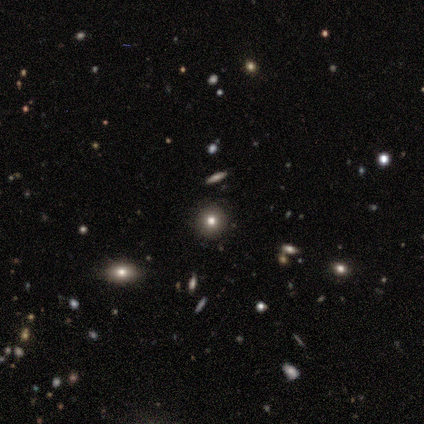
smooth-or-featured: smooth: 83% | featured or disk: 17% | star or artifact: 0%
  how-rounded: round: 100% | in between: 0% | cigar-shaped: 0%
  merging: none: 100% | minor disturbance: 0% | major disturbance: 0% | merger: 0%